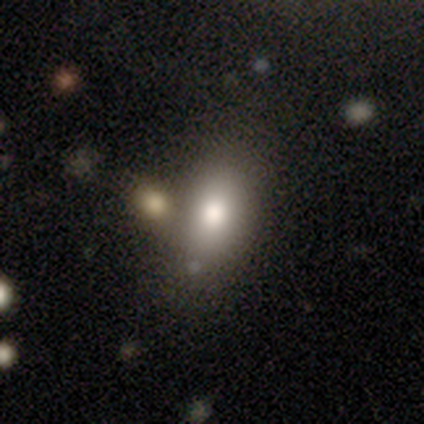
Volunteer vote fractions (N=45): Volunteers were most divided on "merging": none: 68%, merger: 18%, minor disturbance: 12%, major disturbance: 2%. More confident: smooth or featured — smooth (82%); how rounded — in between (81%).